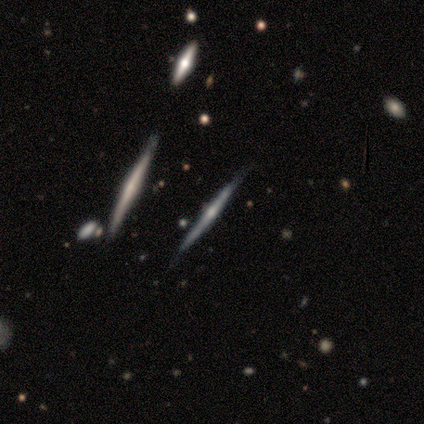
A featured or disk galaxy (62%) viewed edge-on (100%) with a rounded central bulge (80%).

Vote fractions:
- Smooth or featured? featured or disk: 62% / star or artifact: 25% / smooth: 12%
- Edge-on disk? yes: 100% / no: 0%
- Edge-on bulge? rounded: 80% / boxy: 20% / none: 0%
- Merging? none: 100% / minor disturbance: 0% / major disturbance: 0% / merger: 0%